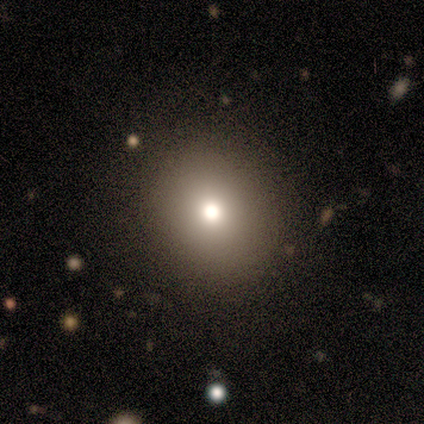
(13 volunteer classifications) Morphology: type=smooth (77%); roundness=round (80%); merging=none (91%).